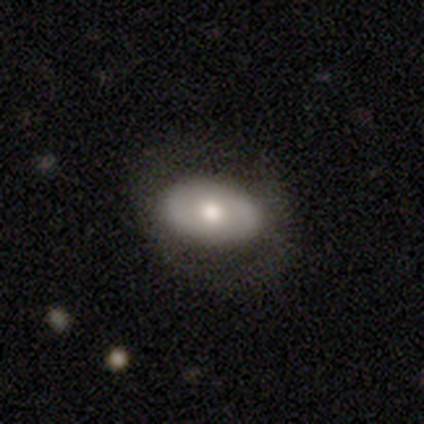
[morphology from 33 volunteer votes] Q: Smooth or featured?
A: smooth (55%); runner-up: featured or disk (36%)
Q: How rounded?
A: in between (83%); runner-up: round (17%)
Q: Merging?
A: none (83%); runner-up: minor disturbance (17%)